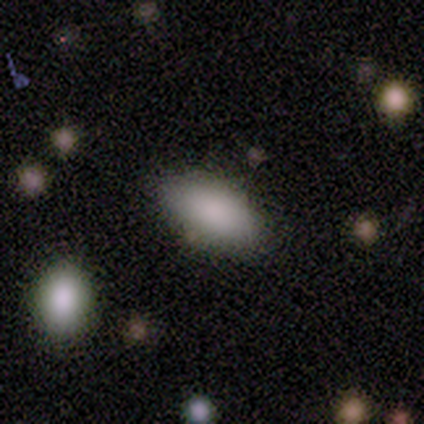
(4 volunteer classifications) This appears to be a smooth galaxy with no disk features (75%) that is in between round and cigar-shaped (100%). Merging: none (100%).